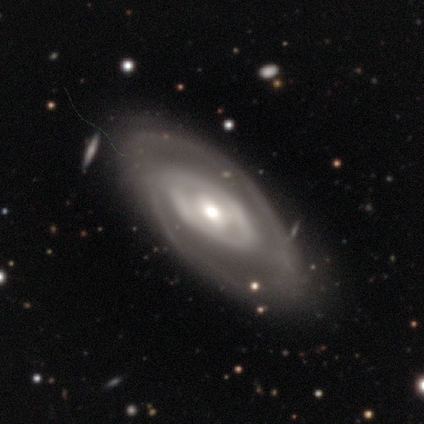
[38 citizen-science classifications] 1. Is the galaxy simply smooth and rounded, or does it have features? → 89% featured or disk, 11% smooth, 0% star or artifact.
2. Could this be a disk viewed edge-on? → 97% no, 3% yes.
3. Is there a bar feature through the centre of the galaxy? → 45% no, 42% weak, 12% strong.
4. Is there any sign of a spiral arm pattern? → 85% yes, 15% no.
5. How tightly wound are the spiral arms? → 43% medium, 39% tight, 18% loose.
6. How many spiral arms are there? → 61% 2, 25% can't tell, 11% 1, 4% 3, 0% 4, 0% more than 4.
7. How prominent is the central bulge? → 61% moderate, 24% small, 15% large, 0% dominant, 0% none.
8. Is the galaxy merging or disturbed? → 71% none, 24% minor disturbance, 5% merger, 0% major disturbance.